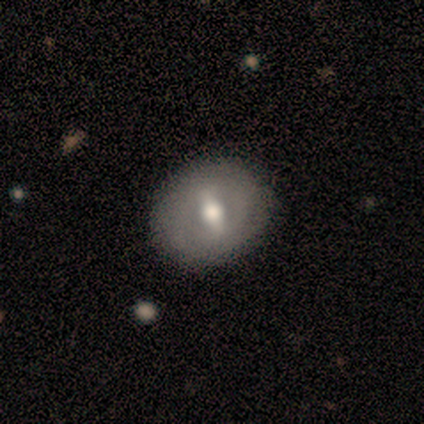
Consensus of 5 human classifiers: Q: Smooth or featured?
A: featured or disk (80%); runner-up: smooth (20%)
Q: Edge-on disk?
A: no (100%)
Q: Bar?
A: weak (50%); runner-up: strong (25%)
Q: Spiral arms?
A: no (100%)
Q: Bulge size?
A: moderate (75%); runner-up: small (25%)
Q: Merging?
A: none (80%); runner-up: major disturbance (20%)